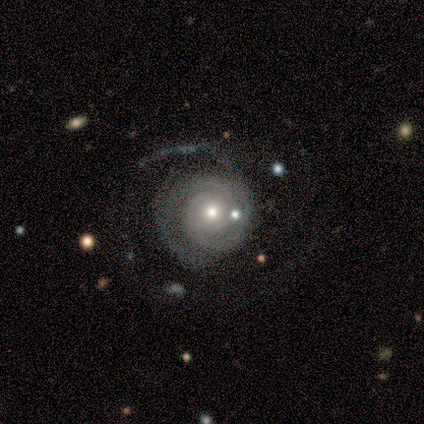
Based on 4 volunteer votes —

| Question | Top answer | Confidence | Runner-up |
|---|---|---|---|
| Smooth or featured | featured or disk | 75% | smooth (25%) |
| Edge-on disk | no | 100% | — |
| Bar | no | 100% | — |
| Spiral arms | yes | 100% | — |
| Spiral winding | tight | 33% | tied: medium (33%), loose (33%) |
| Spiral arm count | can't tell | 67% | 2 (33%) |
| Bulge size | small | 67% | moderate (33%) |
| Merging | major disturbance | 75% | none (25%) |